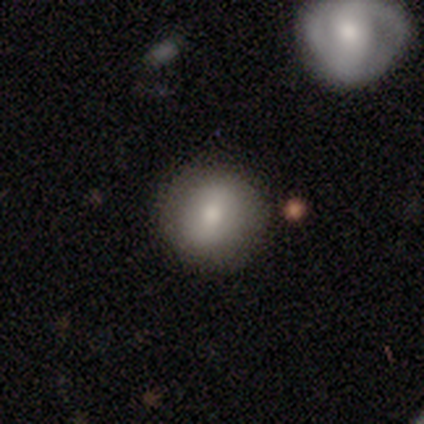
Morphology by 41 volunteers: A smooth galaxy with no disk features (85%) that is round (86%).

Vote fractions:
- Smooth or featured? smooth: 85% / featured or disk: 10% / star or artifact: 5%
- How rounded? round: 86% / in between: 14% / cigar-shaped: 0%
- Merging? none: 92% / minor disturbance: 8% / major disturbance: 0% / merger: 0%